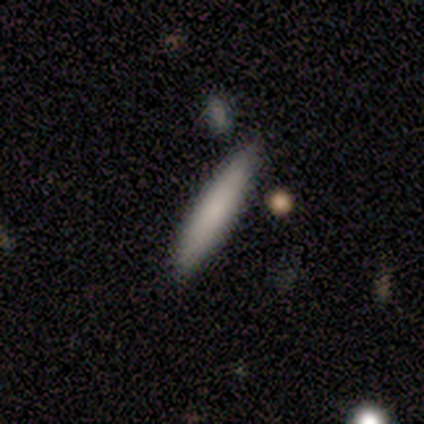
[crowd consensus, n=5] Smooth or featured? smooth (100%)
How rounded? cigar-shaped (100%)
Merging? none (100%)